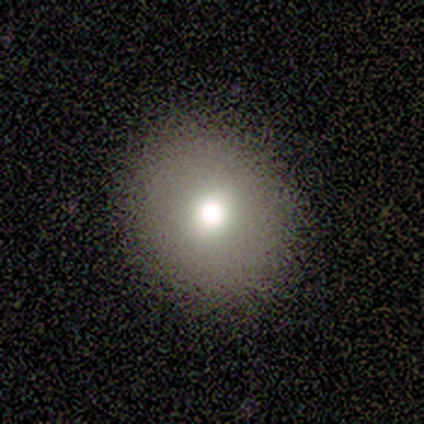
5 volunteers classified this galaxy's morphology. Volunteers were most divided on "how rounded": round: 60%, in between: 40%, cigar-shaped: 0%. More confident: smooth or featured — smooth (100%); merging — none (80%).